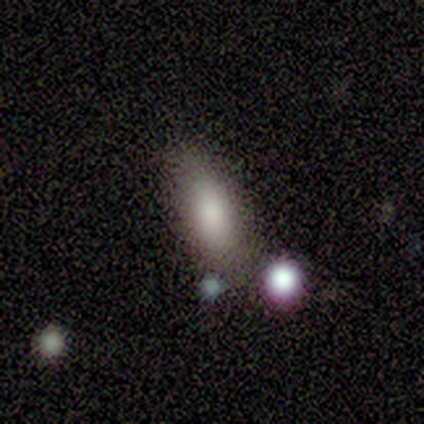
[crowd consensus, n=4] This appears to be a smooth galaxy with no disk features (100%) that is in between round and cigar-shaped (50%, tied with cigar-shaped). Merging: none (75%).